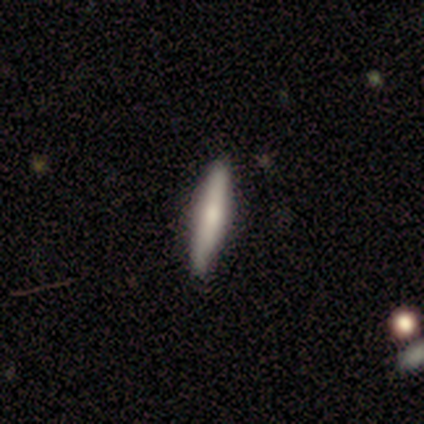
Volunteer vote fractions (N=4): Smooth or featured? 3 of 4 (75%) said smooth. How rounded? 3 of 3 (100%) said cigar-shaped. Merging? 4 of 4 (100%) said none.